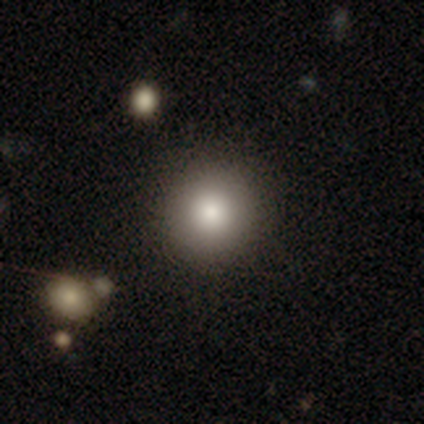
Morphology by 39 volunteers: Volunteers were most divided on "merging": none: 74%, minor disturbance: 3%, major disturbance: 0%, merger: 0%. More confident: how rounded — round (100%); smooth or featured — smooth (92%).